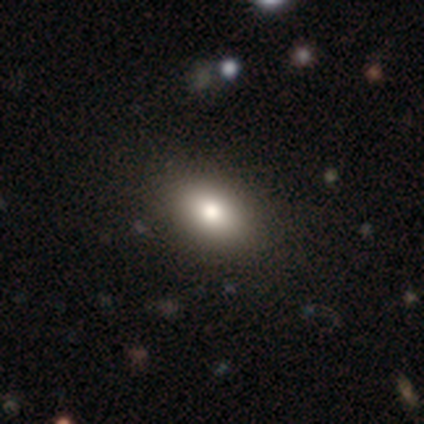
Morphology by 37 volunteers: This is likely a smooth galaxy (78%). How rounded: clearly in between (86%). Merging: likely none (79%).